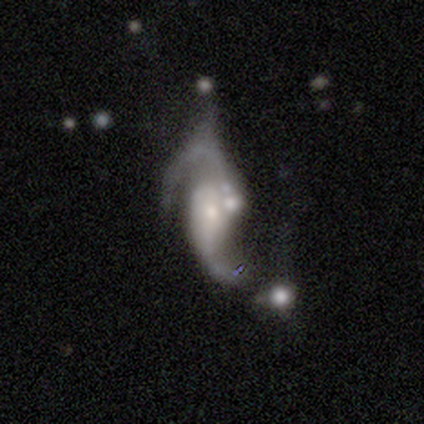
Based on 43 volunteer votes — Smooth or featured?
  - featured or disk: 93% *
  - smooth: 5%
  - star or artifact: 2%
Edge-on disk?
  - no: 98% *
  - yes: 2%
Bar?
  - no: 62% *
  - weak: 31%
  - strong: 8%
Spiral arms?
  - yes: 90% *
  - no: 10%
Spiral winding?
  - loose: 66% *
  - medium: 23%
  - tight: 11%
Spiral arm count?
  - 2: 71% *
  - 1: 14%
  - can't tell: 9%
  - 3: 6%
  - 4: 0%
  - more than 4: 0%
Bulge size?
  - small: 62% *
  - moderate: 33%
  - large: 3%
  - none: 3%
  - dominant: 0%
Merging?
  - merger: 45% *
  - none: 19%
  - major disturbance: 19%
  - minor disturbance: 17%